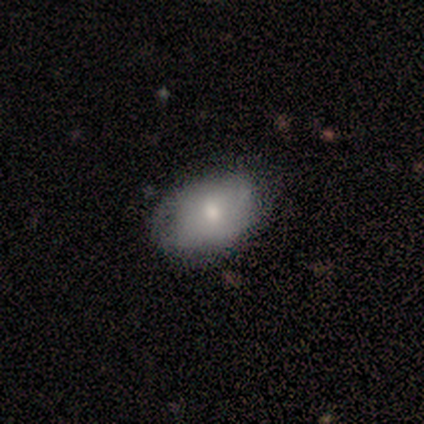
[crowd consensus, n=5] Morphology: type=smooth (60%); roundness=in between (67%); merging=none (60%).